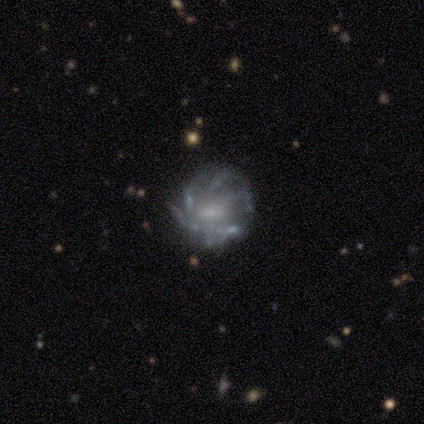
smooth_or_featured: featured or disk (p=0.93) [alt: smooth p=0.07]
disk_edge_on: no (p=1.00)
bar: no (p=0.54) [alt: weak p=0.38]
has_spiral_arms: yes (p=0.62) [alt: no p=0.38]
spiral_winding: medium (p=0.62) [alt: tight p=0.38]
spiral_arm_count: can't tell (p=0.50) [alt: more than 4 p=0.25]
bulge_size: moderate (p=0.46) [alt: none p=0.38]
merging: minor disturbance (p=0.50) [alt: none p=0.21]